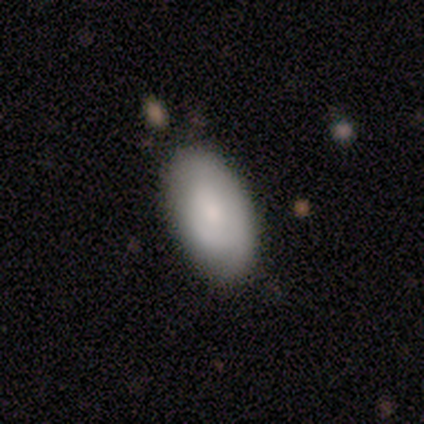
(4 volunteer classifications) Morphology: type=smooth (100%); roundness=in between (75%); merging=none (100%).